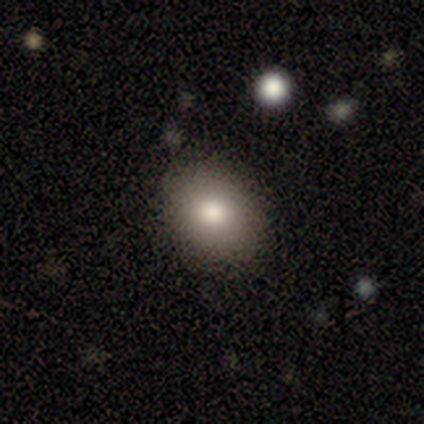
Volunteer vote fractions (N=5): smooth 100%, featured or disk 0%, star or artifact 0%. Down the decision tree: how rounded — in between (60%); merging — none (80%).